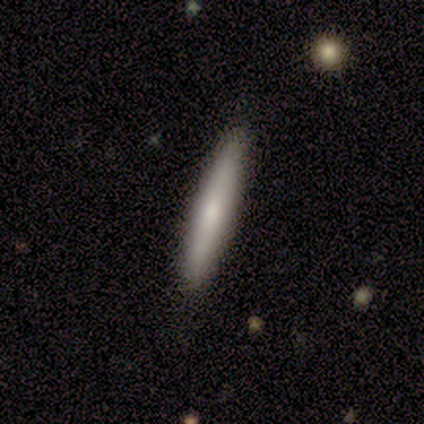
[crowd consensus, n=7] smooth-or-featured: smooth: 71% | featured or disk: 29% | star or artifact: 0%
  how-rounded: cigar-shaped: 100% | round: 0% | in between: 0%
  merging: none: 100% | minor disturbance: 0% | major disturbance: 0% | merger: 0%